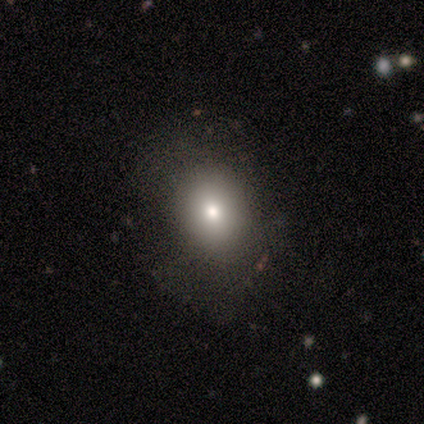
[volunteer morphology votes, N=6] smooth_or_featured: smooth (p=0.67) [alt: featured or disk p=0.17]
how_rounded: in between (p=0.75) [alt: round p=0.25]
merging: none (p=0.60) [alt: minor disturbance p=0.20]